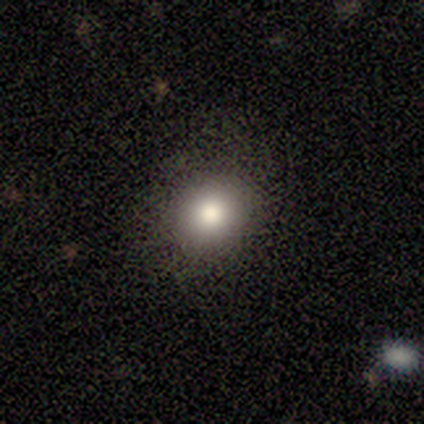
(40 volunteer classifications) Smooth or featured? 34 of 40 (85%) said smooth. How rounded? 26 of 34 (76%) said round. Merging? 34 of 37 (92%) said none.